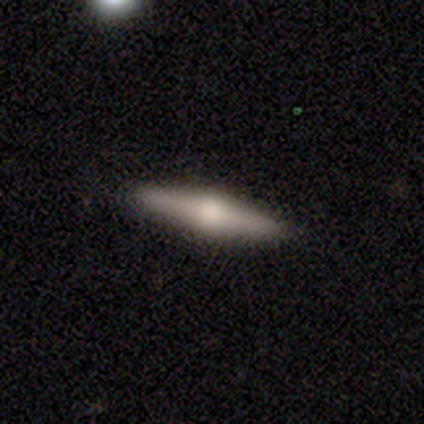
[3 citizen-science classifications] A featured or disk galaxy (100%) viewed edge-on (100%) with a rounded central bulge (100%). Merging: none (100%).